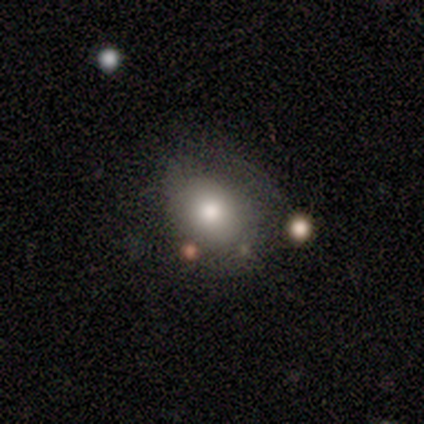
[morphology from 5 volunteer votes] This is marginally a smooth galaxy (40%, tied with featured or disk). How rounded: clearly in between (100%). Merging: possibly none (50%).